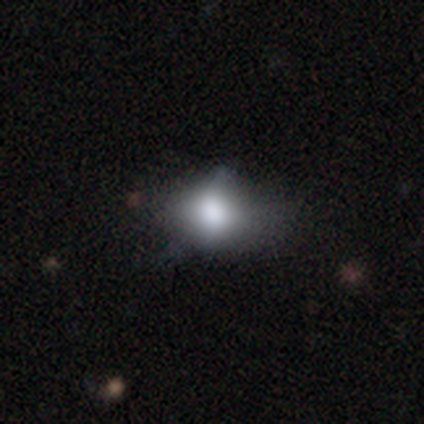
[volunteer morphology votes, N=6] Q: Smooth or featured?
A: smooth (67%); runner-up: featured or disk (17%)
Q: How rounded?
A: in between (100%)
Q: Merging?
A: minor disturbance (60%); runner-up: none (40%)